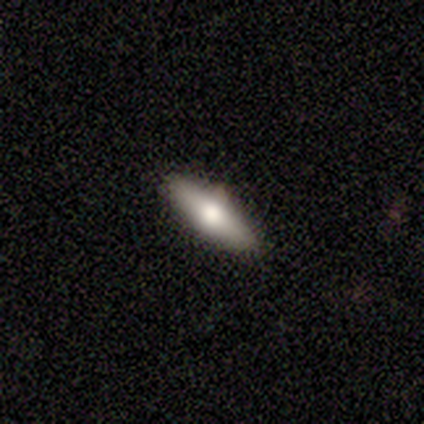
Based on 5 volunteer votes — smooth_or_featured: smooth (p=0.60) [alt: featured or disk p=0.40]
how_rounded: cigar-shaped (p=0.67) [alt: in between p=0.33]
merging: none (p=1.00)